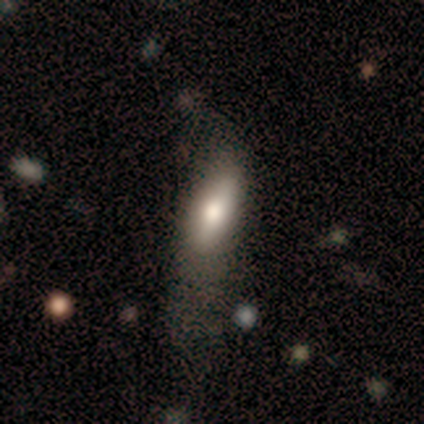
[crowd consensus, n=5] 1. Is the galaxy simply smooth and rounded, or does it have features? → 80% smooth, 20% star or artifact, 0% featured or disk.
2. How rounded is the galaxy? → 75% in between, 25% cigar-shaped, 0% round.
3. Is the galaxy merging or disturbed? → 50% none, 25% minor disturbance, 25% major disturbance, 0% merger.